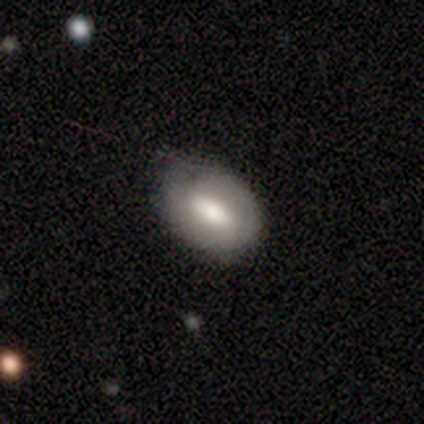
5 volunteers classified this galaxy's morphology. Smooth or featured?
  - featured or disk: 60% *
  - smooth: 40%
  - star or artifact: 0%
Edge-on disk?
  - no: 100% *
  - yes: 0%
Bar?
  - strong: 33% * (tied)
  - weak: 33% * (tied)
  - no: 33% * (tied)
Spiral arms?
  - no: 67% *
  - yes: 33%
Bulge size?
  - large: 33% * (tied)
  - small: 33% * (tied)
  - none: 33% * (tied)
  - dominant: 0%
  - moderate: 0%
Merging?
  - none: 60% *
  - minor disturbance: 40%
  - major disturbance: 0%
  - merger: 0%